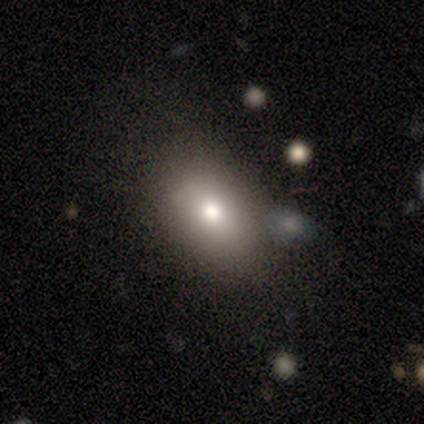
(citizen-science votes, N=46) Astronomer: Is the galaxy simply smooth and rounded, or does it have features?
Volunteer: smooth — 74%.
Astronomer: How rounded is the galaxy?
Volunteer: in between — 79%.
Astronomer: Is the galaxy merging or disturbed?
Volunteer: none — 74%.